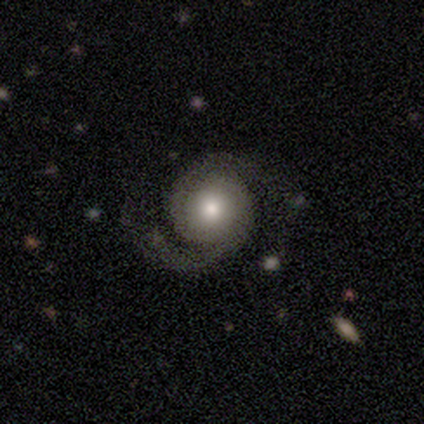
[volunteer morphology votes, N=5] Smooth or featured: featured or disk — 100%
Edge-on disk: no — 100%
Bar: no — 100%
Spiral arms: yes — 100%
Spiral winding: medium — 60% (tight — 20%)
Spiral arm count: 2 — 100%
Bulge size: moderate — 40% (tied with small — 40%)
Merging: none — 100%